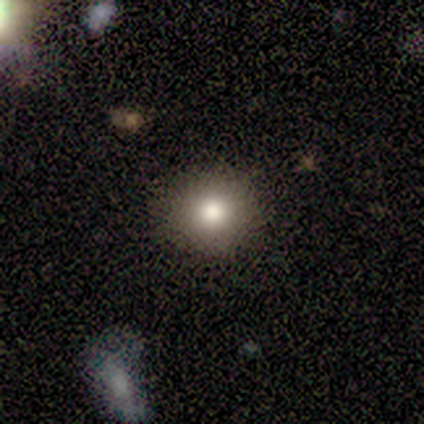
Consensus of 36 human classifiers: Smooth or featured?
  - smooth: 81% *
  - star or artifact: 14%
  - featured or disk: 6%
How rounded?
  - round: 93% *
  - in between: 7%
  - cigar-shaped: 0%
Merging?
  - none: 90% *
  - minor disturbance: 6%
  - merger: 3%
  - major disturbance: 0%